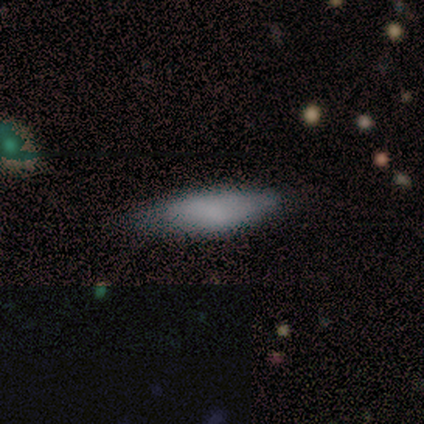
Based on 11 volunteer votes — smooth-or-featured: smooth: 100% | featured or disk: 0% | star or artifact: 0%
  how-rounded: cigar-shaped: 73% | in between: 27% | round: 0%
  merging: none: 82% | minor disturbance: 18% | major disturbance: 0% | merger: 0%